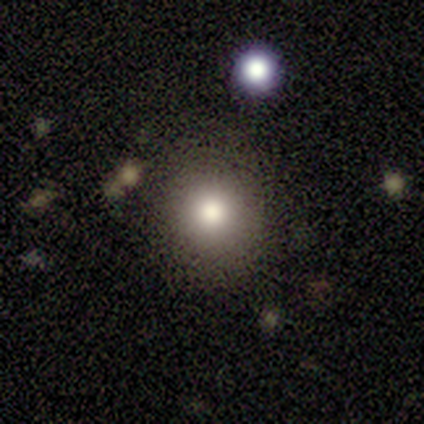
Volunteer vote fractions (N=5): This is clearly a smooth galaxy (100%). How rounded: clearly round (80%). Merging: clearly none (80%).